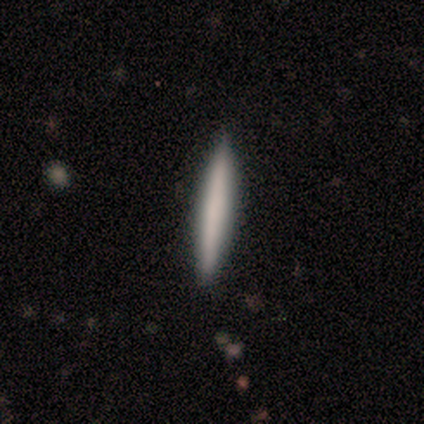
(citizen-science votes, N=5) This appears to be a smooth galaxy with no disk features (100%) that is cigar-shaped (100%). Merging: none (100%).